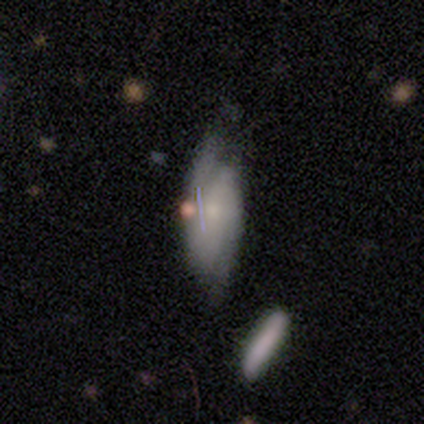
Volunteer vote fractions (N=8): Q: Smooth or featured?
A: featured or disk (88%); runner-up: smooth (12%)
Q: Edge-on disk?
A: no (86%); runner-up: yes (14%)
Q: Bar?
A: no (67%); runner-up: strong (17%)
Q: Spiral arms?
A: yes (100%)
Q: Spiral winding?
A: medium (67%); runner-up: tight (17%)
Q: Spiral arm count?
A: 2 (83%); runner-up: can't tell (17%)
Q: Bulge size?
A: small (67%); runner-up: moderate (33%)
Q: Merging?
A: none (75%); runner-up: major disturbance (25%)